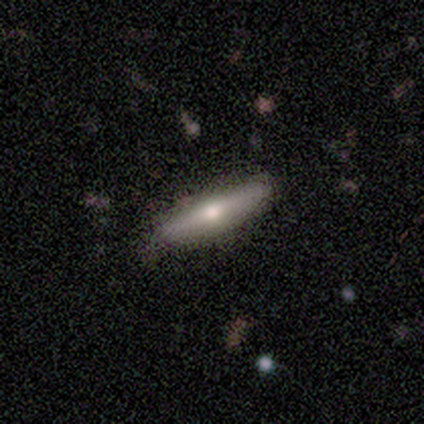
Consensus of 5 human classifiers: Smooth or featured?
  - featured or disk: 60% *
  - smooth: 40%
  - star or artifact: 0%
Edge-on disk?
  - yes: 100% *
  - no: 0%
Edge-on bulge?
  - rounded: 100% *
  - boxy: 0%
  - none: 0%
Merging?
  - none: 80% *
  - minor disturbance: 20%
  - major disturbance: 0%
  - merger: 0%